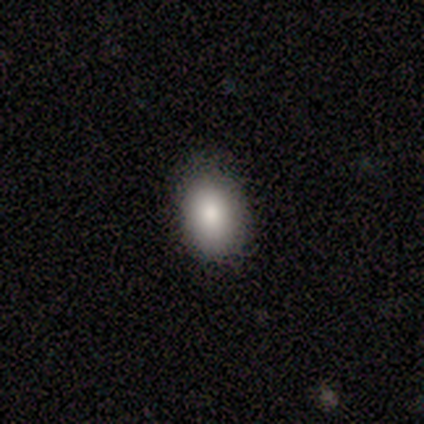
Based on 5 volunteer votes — smooth_or_featured: smooth (p=1.00)
how_rounded: in between (p=1.00)
merging: none (p=1.00)